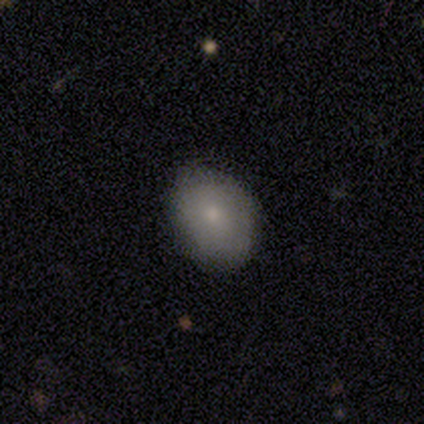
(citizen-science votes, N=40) Smooth or featured? 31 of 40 (78%) said smooth. How rounded? 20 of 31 (65%) said in between. Merging? 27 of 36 (75%) said none.